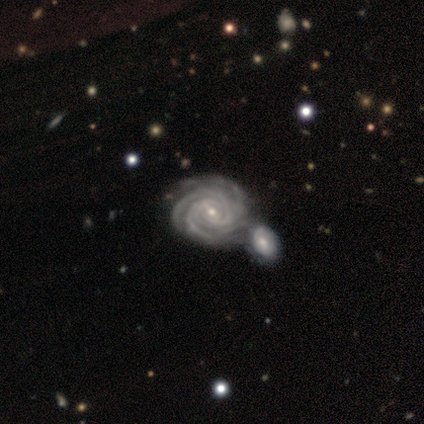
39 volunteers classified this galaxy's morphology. Overall: featured or disk (90%). Edge-on disk: no (100%). Bar: weak (69%). Spiral arms: yes (100%). Spiral arm count: 3 (31%; 4 29%). Spiral winding: tight (86%). Bulge size: small (66%; moderate 31%). Merging: merger (57%; none 30%).